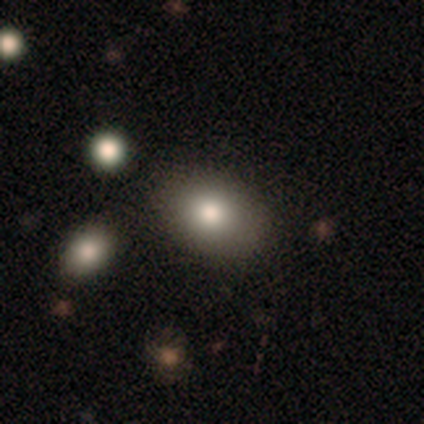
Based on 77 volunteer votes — smooth-or-featured: smooth: 88% | featured or disk: 8% | star or artifact: 4%
  how-rounded: in between: 60% | round: 37% | cigar-shaped: 3%
  merging: none: 45% | minor disturbance: 8% | merger: 8% | major disturbance: 1%